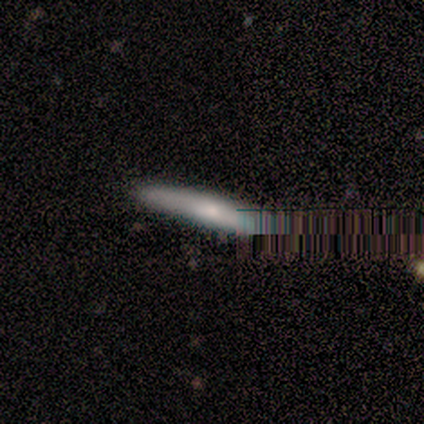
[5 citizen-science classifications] This is clearly a smooth galaxy (80%). How rounded: clearly cigar-shaped (100%). Merging: clearly none (100%).